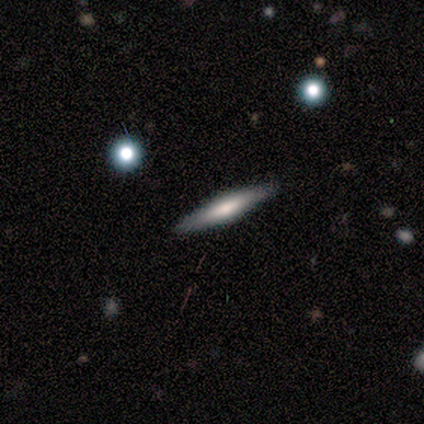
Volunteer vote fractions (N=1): featured or disk 100%, smooth 0%, star or artifact 0%. Down the decision tree: edge-on disk — yes (100%); edge-on bulge — rounded (100%); merging — none (100%).